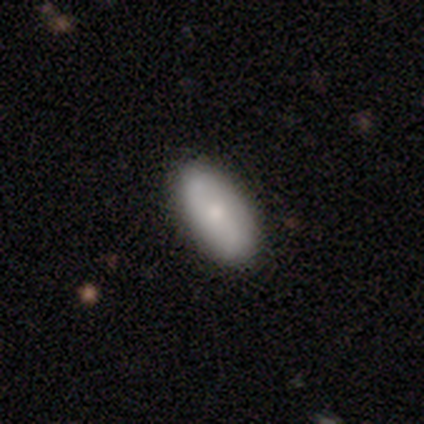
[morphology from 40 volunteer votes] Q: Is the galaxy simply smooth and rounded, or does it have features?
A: smooth — 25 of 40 (62%).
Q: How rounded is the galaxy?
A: in between — 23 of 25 (92%).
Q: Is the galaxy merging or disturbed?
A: none — 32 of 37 (86%).